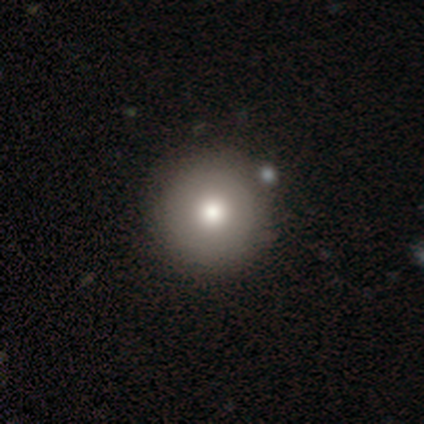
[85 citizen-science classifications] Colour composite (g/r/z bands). It shows a smooth galaxy with no disk features (76%) that is round (100%). Merging: none (87%).